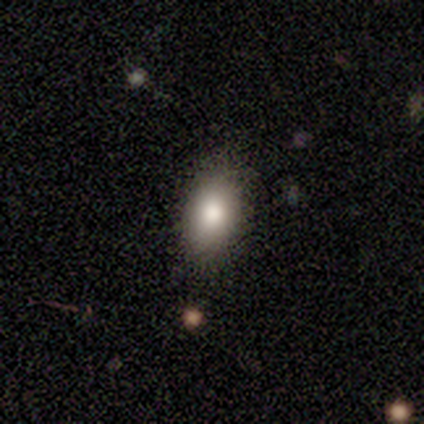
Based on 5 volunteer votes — smooth_or_featured: smooth (p=0.40) [tied with: featured or disk p=0.40]
how_rounded: in between (p=1.00)
merging: none (p=1.00)